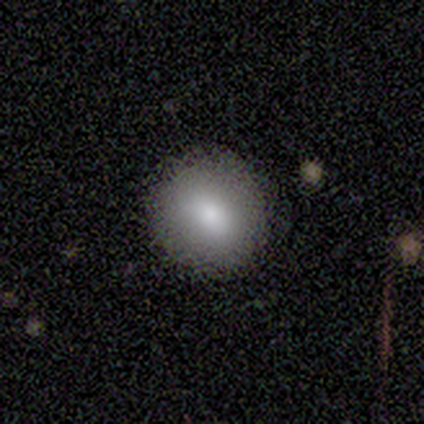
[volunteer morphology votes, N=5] smooth_or_featured: smooth (p=0.60) [alt: featured or disk p=0.20]
how_rounded: in between (p=0.67) [alt: round p=0.33]
merging: none (p=0.75) [alt: minor disturbance p=0.25]